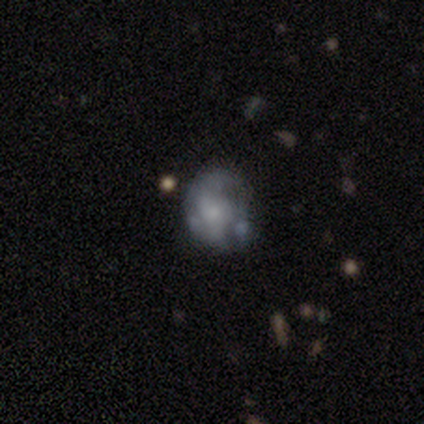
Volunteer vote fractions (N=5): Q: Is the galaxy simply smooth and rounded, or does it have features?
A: featured or disk — 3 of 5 (60%).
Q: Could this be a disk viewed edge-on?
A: no — 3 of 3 (100%).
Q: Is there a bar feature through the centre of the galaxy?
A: no — 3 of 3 (100%).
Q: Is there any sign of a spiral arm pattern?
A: no — 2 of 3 (67%).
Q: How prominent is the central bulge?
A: moderate — 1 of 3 (33%, tied with small and none).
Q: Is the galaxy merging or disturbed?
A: minor disturbance — 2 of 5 (40%).